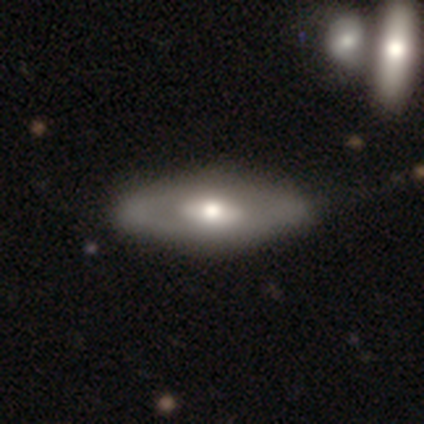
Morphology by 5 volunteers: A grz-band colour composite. It shows a featured or disk galaxy (40%, tied with star or artifact) with no bar (100%), no spiral arms (100%) and a large central bulge (50%, tied with moderate). Merging: none (67%).